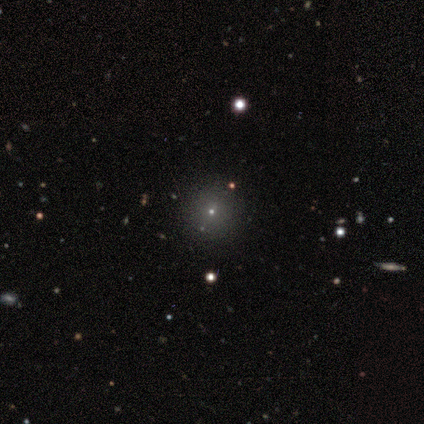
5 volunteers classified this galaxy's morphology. This appears to be a smooth galaxy with no disk features (60%) that is round (100%). Merging: none (67%).